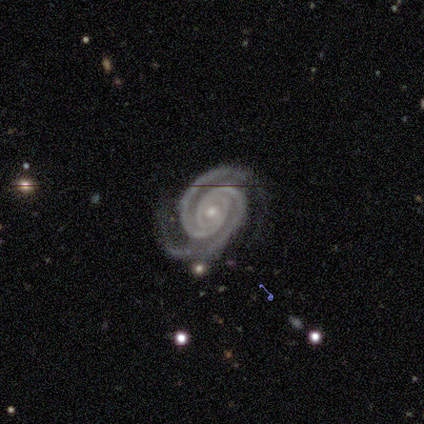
Smooth or featured? 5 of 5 (100%) said featured or disk. Edge-on disk? 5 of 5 (100%) said no. Bar? 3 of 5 (60%) said no. Spiral arms? 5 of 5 (100%) said yes. Spiral winding? 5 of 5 (100%) said tight. Spiral arm count? 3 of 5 (60%) said 2. Bulge size? 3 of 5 (60%) said small. Merging? 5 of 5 (100%) said none.